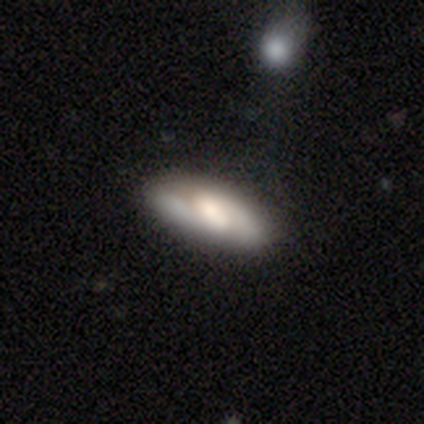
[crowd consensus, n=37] Q: Smooth or featured?
A: smooth (46%); tied with: featured or disk (46%)
Q: How rounded?
A: in between (94%); runner-up: cigar-shaped (6%)
Q: Merging?
A: none (76%); runner-up: minor disturbance (15%)